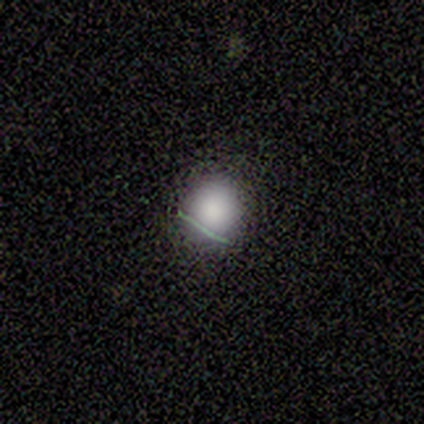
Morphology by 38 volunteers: Smooth or featured: smooth — 79% (star or artifact — 16%)
How rounded: round — 77% (in between — 23%)
Merging: none — 88% (minor disturbance — 12%)